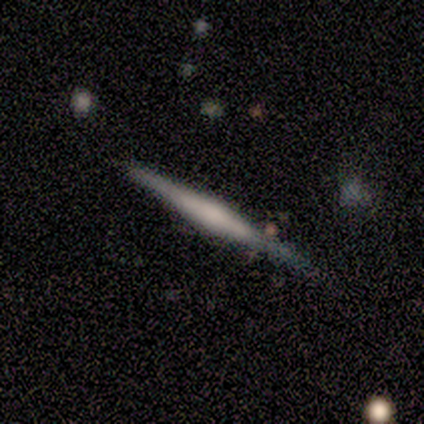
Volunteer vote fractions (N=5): Smooth or featured: featured or disk — 80% (smooth — 20%)
Edge-on disk: yes — 100%
Edge-on bulge: none — 50% (tied with rounded — 50%)
Merging: none — 60% (minor disturbance — 40%)